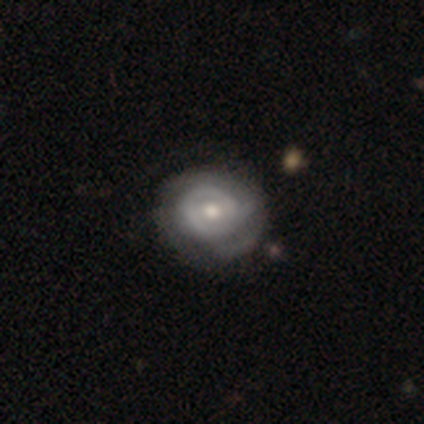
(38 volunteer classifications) Morphology: type=featured or disk (74%); edge-on=no (96%); bar=no (70%); spiral arms=yes (67%); winding=tight (67%); arm count=can't tell (50%); bulge=moderate (81%); merging=none (38%).